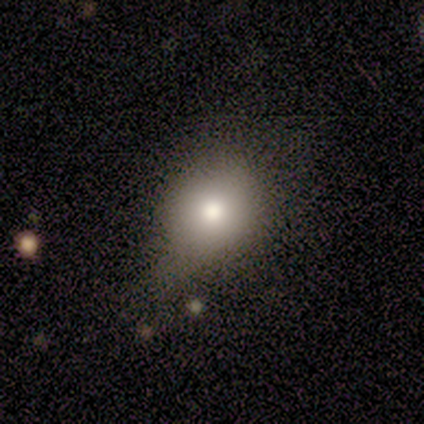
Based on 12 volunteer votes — Smooth or featured?
  - smooth: 75% *
  - featured or disk: 25%
  - star or artifact: 0%
How rounded?
  - round: 78% *
  - in between: 22%
  - cigar-shaped: 0%
Merging?
  - none: 58% *
  - minor disturbance: 42%
  - major disturbance: 0%
  - merger: 0%